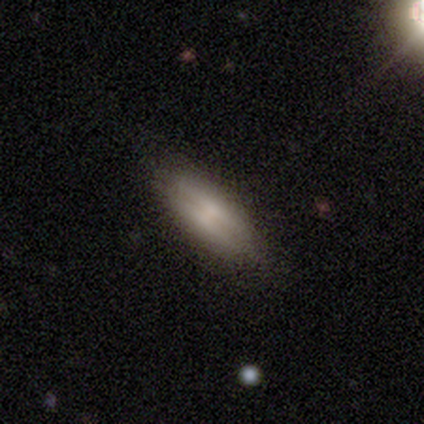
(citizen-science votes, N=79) This is possibly a smooth galaxy (58%). How rounded: likely in between (67%). Merging: possibly none (55%).